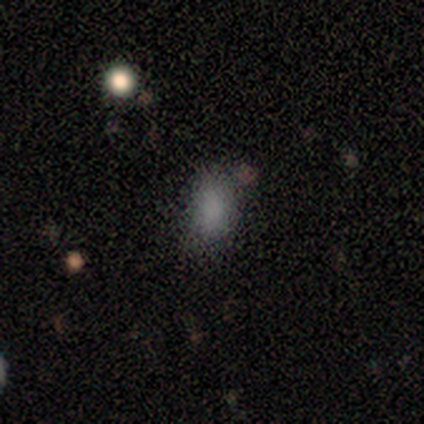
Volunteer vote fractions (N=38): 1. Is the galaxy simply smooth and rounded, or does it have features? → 82% smooth, 13% star or artifact, 5% featured or disk.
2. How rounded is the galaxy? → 81% in between, 19% round, 0% cigar-shaped.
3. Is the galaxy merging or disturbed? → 76% none, 15% minor disturbance, 6% major disturbance, 3% merger.